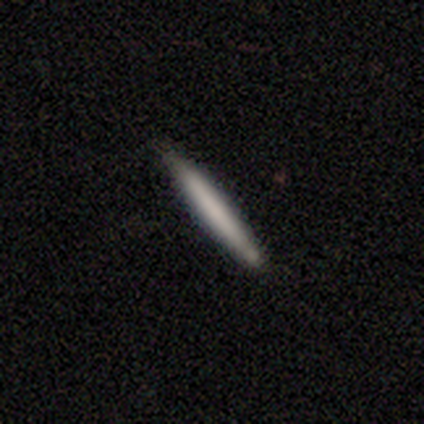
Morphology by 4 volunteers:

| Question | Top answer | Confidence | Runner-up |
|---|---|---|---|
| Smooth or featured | smooth | 75% | featured or disk (25%) |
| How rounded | cigar-shaped | 100% | — |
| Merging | none | 75% | minor disturbance (25%) |